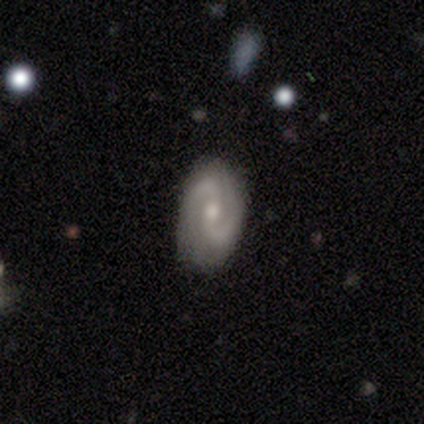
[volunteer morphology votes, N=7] This appears to be a featured or disk galaxy (100%) with a weak bar (43%, tied with no), 2 (100%) tight (43%, tied with medium) spiral arms (100%) and a moderate central bulge (57%). Merging: none (86%).